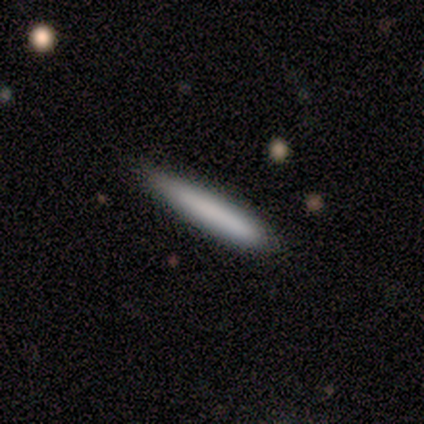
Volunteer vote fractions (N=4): smooth-or-featured: smooth: 75% | star or artifact: 25% | featured or disk: 0%
  how-rounded: cigar-shaped: 100% | round: 0% | in between: 0%
  merging: none: 100% | minor disturbance: 0% | major disturbance: 0% | merger: 0%